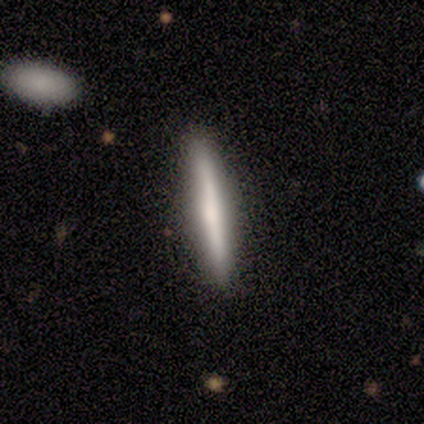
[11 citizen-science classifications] A featured or disk galaxy (64%) viewed edge-on (100%) with a rounded central bulge (57%). Merging: none (91%).